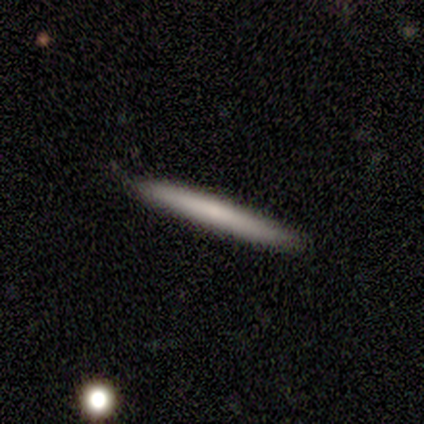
Smooth or featured?
  - smooth: 100% *
  - featured or disk: 0%
  - star or artifact: 0%
How rounded?
  - cigar-shaped: 100% *
  - round: 0%
  - in between: 0%
Merging?
  - none: 100% *
  - minor disturbance: 0%
  - major disturbance: 0%
  - merger: 0%